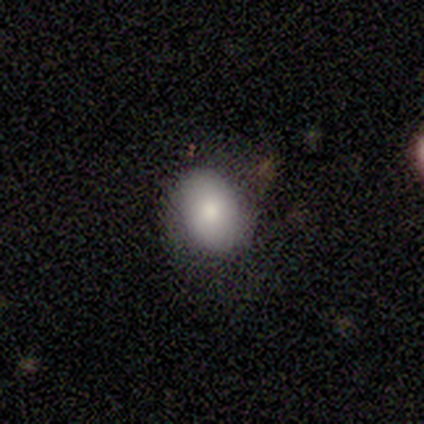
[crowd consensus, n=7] smooth 100%, featured or disk 0%, star or artifact 0%. Down the decision tree: how rounded — in between (71%); merging — none (86%).